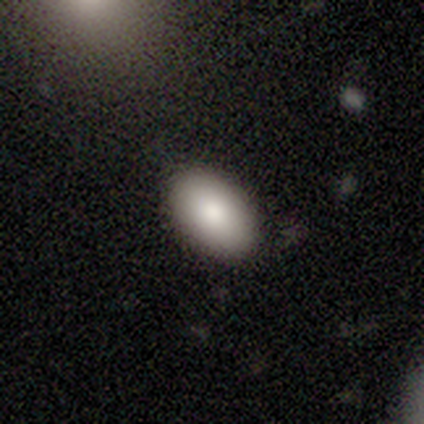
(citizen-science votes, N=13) Volunteers were most divided on "smooth or featured": smooth: 92%, featured or disk: 8%, star or artifact: 0%. More confident: how rounded — in between (100%); merging — none (92%).